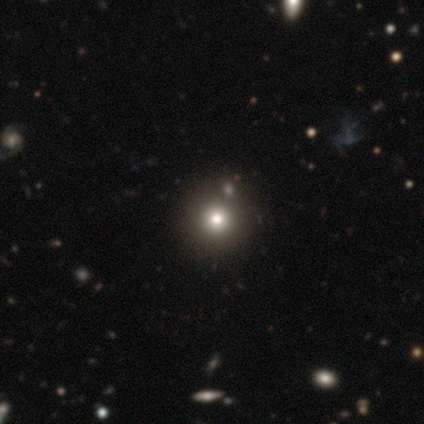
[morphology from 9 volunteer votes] This appears to be a smooth galaxy with no disk features (78%) that is round (100%). Merging: none (86%).